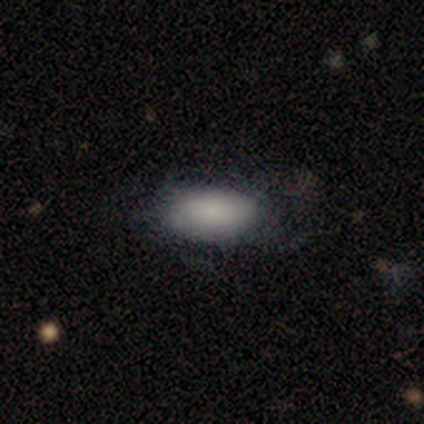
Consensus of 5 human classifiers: smooth_or_featured: smooth (p=0.80) [alt: featured or disk p=0.20]
how_rounded: in between (p=1.00)
merging: none (p=0.80) [alt: minor disturbance p=0.20]